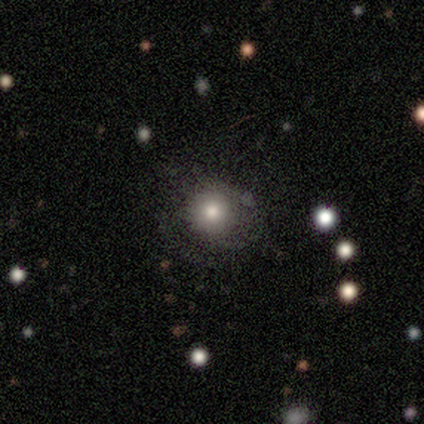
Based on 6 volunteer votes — smooth_or_featured: smooth (p=1.00)
how_rounded: round (p=1.00)
merging: none (p=1.00)